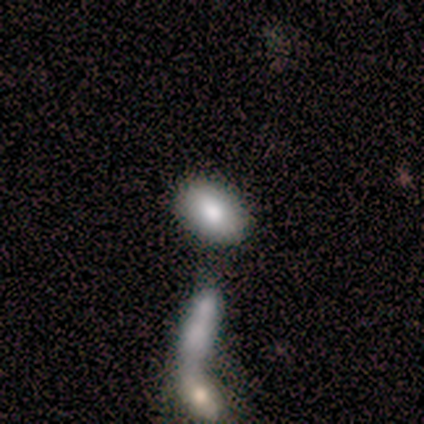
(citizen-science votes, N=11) Overall: smooth (82%). How rounded: in between (100%). Merging: none (82%).